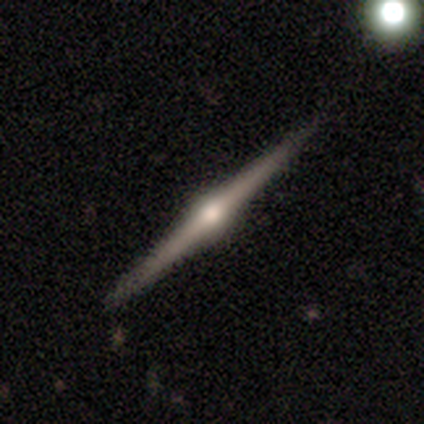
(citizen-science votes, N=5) Q: Smooth or featured?
A: featured or disk (100%)
Q: Edge-on disk?
A: yes (100%)
Q: Edge-on bulge?
A: rounded (100%)
Q: Merging?
A: none (100%)